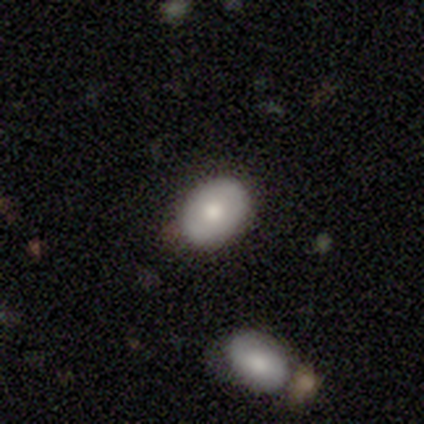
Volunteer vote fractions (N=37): smooth 73%, featured or disk 19%, star or artifact 8%. Down the decision tree: how rounded — in between (78%); merging — none (76%).